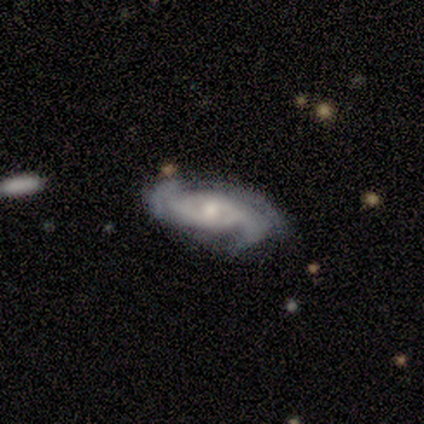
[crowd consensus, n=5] This appears to be a featured or disk galaxy (100%) with no bar (100%), 2 (60%) loose (60%) spiral arms (100%) and a moderate central bulge (60%). Merging: none (60%).